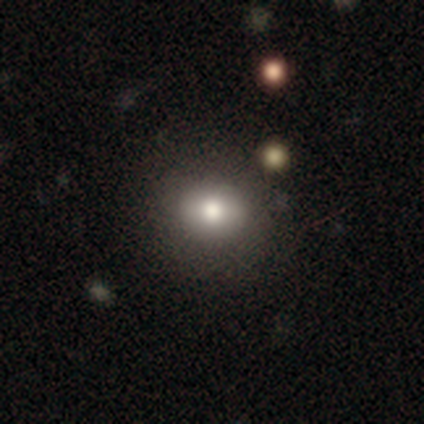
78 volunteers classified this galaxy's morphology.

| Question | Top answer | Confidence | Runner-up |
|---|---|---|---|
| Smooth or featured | smooth | 90% | featured or disk (5%) |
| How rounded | round | 64% | in between (34%) |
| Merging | none | 36% | minor disturbance (9%) |